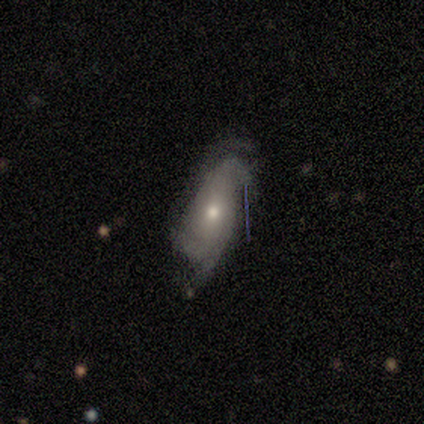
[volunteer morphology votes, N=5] This is likely a smooth galaxy (60%). How rounded: likely in between (67%). Merging: likely major disturbance (60%).